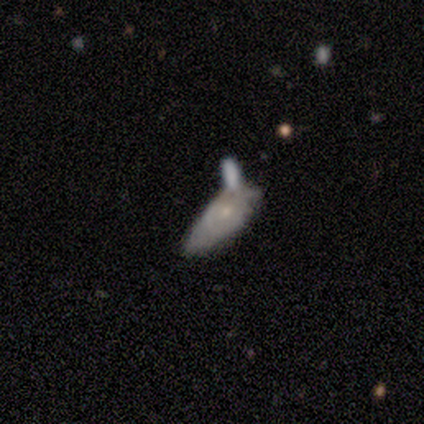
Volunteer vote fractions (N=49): Overall: featured or disk (49%; smooth 47%). Edge-on disk: no (88%). Bar: no (95%). Spiral arms: yes (57%; no 43%). Spiral arm count: can't tell (58%; 2 25%). Spiral winding: tight (50%, tied with medium). Bulge size: small (71%). Merging: merger (45%; minor disturbance 23%).